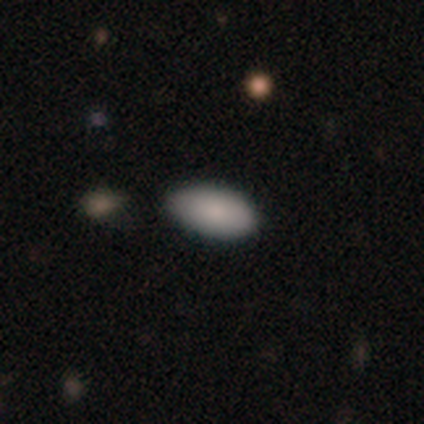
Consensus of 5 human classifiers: smooth-or-featured: smooth: 100% | featured or disk: 0% | star or artifact: 0%
  how-rounded: in between: 100% | round: 0% | cigar-shaped: 0%
  merging: none: 40% (tied) | minor disturbance: 40% (tied) | merger: 20% | major disturbance: 0%